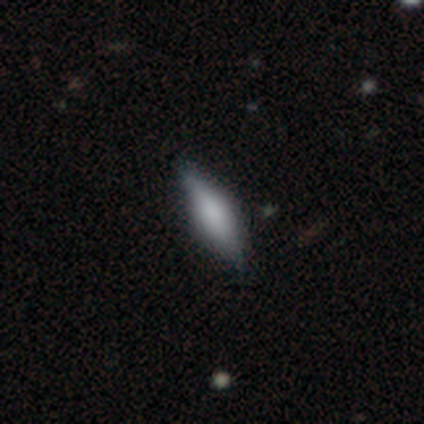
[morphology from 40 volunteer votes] smooth_or_featured: smooth (p=0.50) [alt: featured or disk p=0.40]
how_rounded: cigar-shaped (p=0.55) [alt: in between p=0.45]
merging: none (p=0.86) [alt: minor disturbance p=0.14]